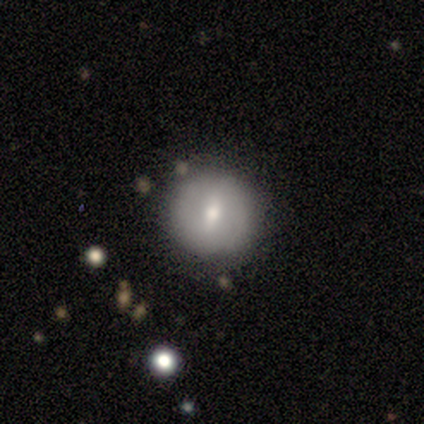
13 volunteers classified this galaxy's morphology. smooth-or-featured: smooth: 54% | featured or disk: 46% | star or artifact: 0%
  how-rounded: round: 100% | in between: 0% | cigar-shaped: 0%
  merging: none: 77% | minor disturbance: 15% | major disturbance: 8% | merger: 0%